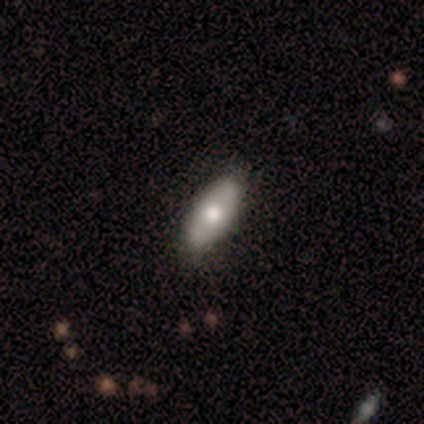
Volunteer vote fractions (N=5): smooth_or_featured: smooth (p=1.00)
how_rounded: in between (p=1.00)
merging: none (p=0.80) [alt: major disturbance p=0.20]